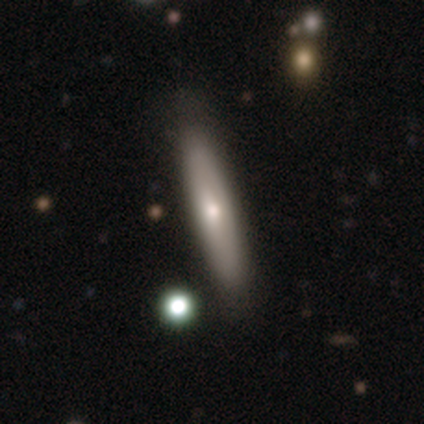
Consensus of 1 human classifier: This appears to be a featured or disk galaxy (100%) viewed edge-on (100%) with a rounded central bulge (100%). Merging: major disturbance (100%).